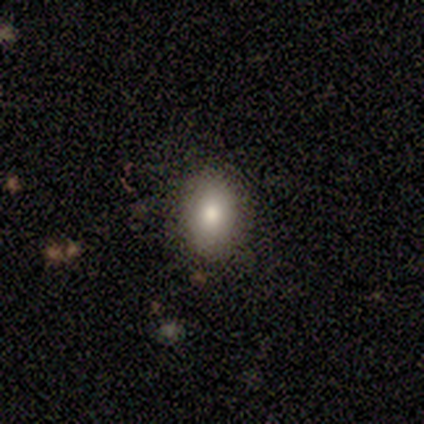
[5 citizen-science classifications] This is clearly a smooth galaxy (80%). How rounded: likely in between (75%). Merging: clearly none (80%).